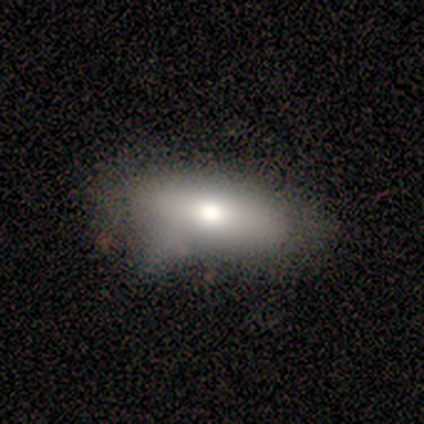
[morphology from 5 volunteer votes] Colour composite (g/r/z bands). It shows a smooth galaxy with no disk features (40%, tied with featured or disk) that is in between round and cigar-shaped (100%). Merging: none (50%, tied with minor disturbance).